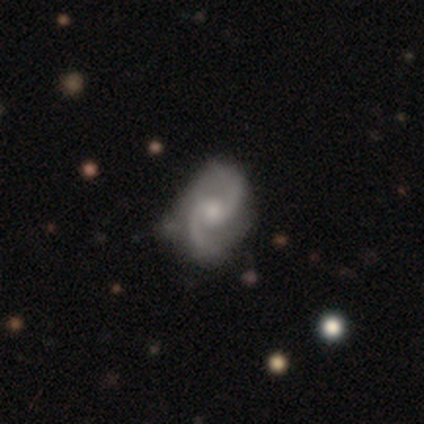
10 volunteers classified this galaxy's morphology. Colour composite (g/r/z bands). It shows a featured or disk galaxy (100%) with a weak bar (50%, tied with no), 2 (100%) medium (90%) spiral arms (100%) and a small central bulge (60%). Merging: none (60%).